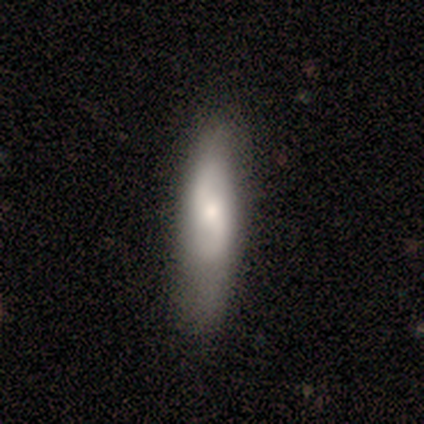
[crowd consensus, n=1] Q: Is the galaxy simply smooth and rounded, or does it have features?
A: featured or disk — 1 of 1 (100%).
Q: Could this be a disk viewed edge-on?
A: no — 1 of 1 (100%).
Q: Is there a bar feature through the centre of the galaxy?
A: weak — 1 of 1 (100%).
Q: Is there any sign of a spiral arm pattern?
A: yes — 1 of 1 (100%).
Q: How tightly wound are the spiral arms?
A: loose — 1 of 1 (100%).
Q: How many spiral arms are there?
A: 2 — 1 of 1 (100%).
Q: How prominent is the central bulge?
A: large — 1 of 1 (100%).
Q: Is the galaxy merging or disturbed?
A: none — 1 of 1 (100%).